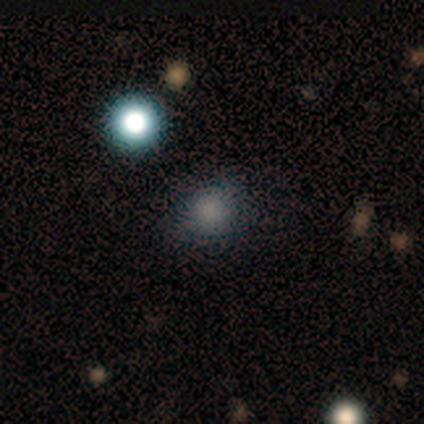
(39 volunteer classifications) Q: Smooth or featured?
A: smooth (67%); runner-up: star or artifact (28%)
Q: How rounded?
A: round (62%); runner-up: in between (38%)
Q: Merging?
A: none (75%); runner-up: minor disturbance (21%)